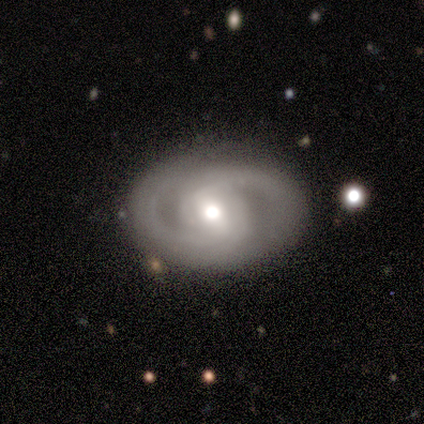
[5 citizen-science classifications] featured or disk 100%, smooth 0%, star or artifact 0%. Down the decision tree: edge-on disk — no (100%); bar — weak (60%); spiral arms — yes (60%); spiral arm count — 2 (100%); spiral winding — medium (100%); bulge size — moderate (60%); merging — none (60%).